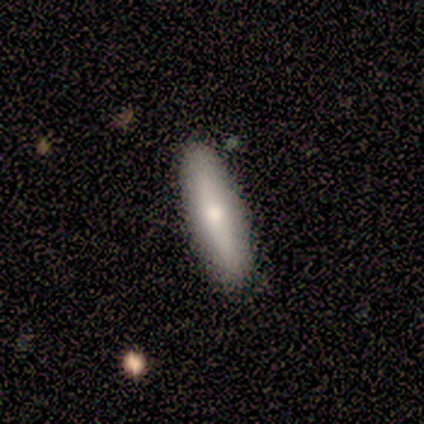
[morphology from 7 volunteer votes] smooth_or_featured: smooth (p=0.57) [alt: featured or disk p=0.43]
how_rounded: cigar-shaped (p=1.00)
merging: none (p=0.86) [alt: minor disturbance p=0.14]